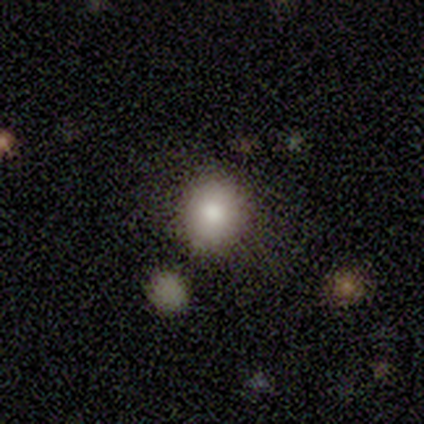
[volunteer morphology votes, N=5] A smooth galaxy with no disk features (100%) that is round (80%).

Vote fractions:
- Smooth or featured? smooth: 100% / featured or disk: 0% / star or artifact: 0%
- How rounded? round: 80% / in between: 20% / cigar-shaped: 0%
- Merging? none: 100% / minor disturbance: 0% / major disturbance: 0% / merger: 0%